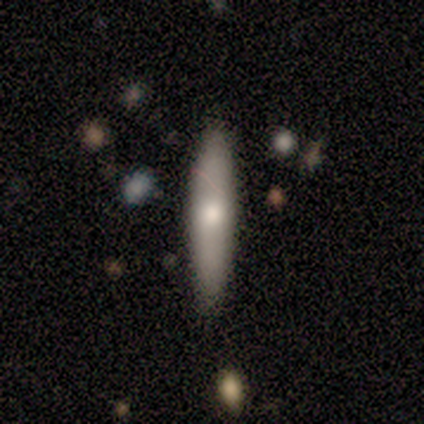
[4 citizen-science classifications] smooth 75%, featured or disk 25%, star or artifact 0%. Down the decision tree: how rounded — cigar-shaped (100%); merging — none (75%).